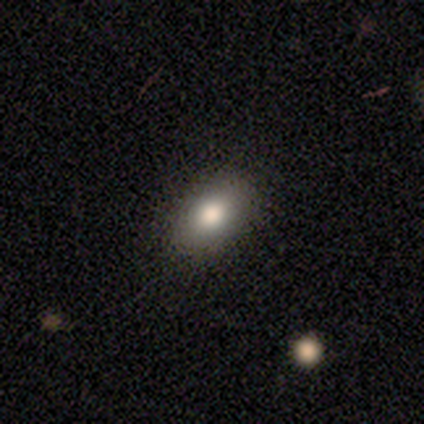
A smooth galaxy with no disk features (86%) that is in between round and cigar-shaped (100%). Merging: none (100%).